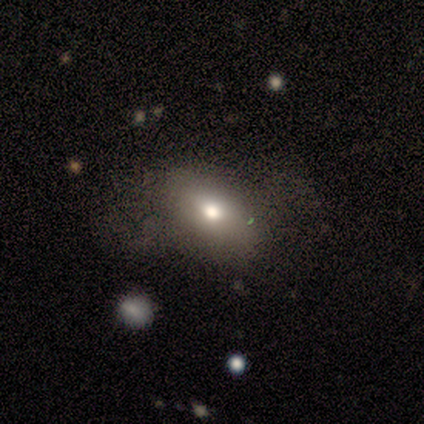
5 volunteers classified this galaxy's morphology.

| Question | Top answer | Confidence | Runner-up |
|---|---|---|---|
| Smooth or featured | smooth | 60% | featured or disk (20%) |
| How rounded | in between | 100% | — |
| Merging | none | 75% | minor disturbance (25%) |